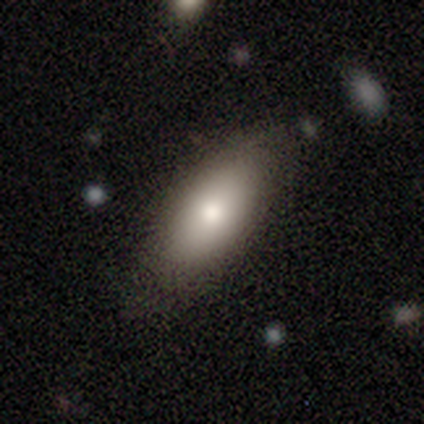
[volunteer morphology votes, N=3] Smooth or featured? smooth (100%)
How rounded? in between (100%)
Merging? none (100%)